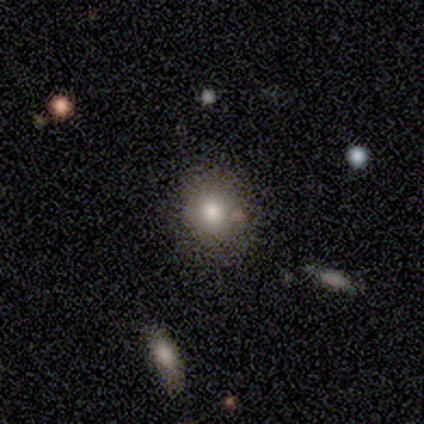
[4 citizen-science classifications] Volunteers were most divided on "how rounded" (2-way tie): round: 50%, in between: 50%, cigar-shaped: 0%. More confident: smooth or featured — smooth (100%); merging — none (75%).